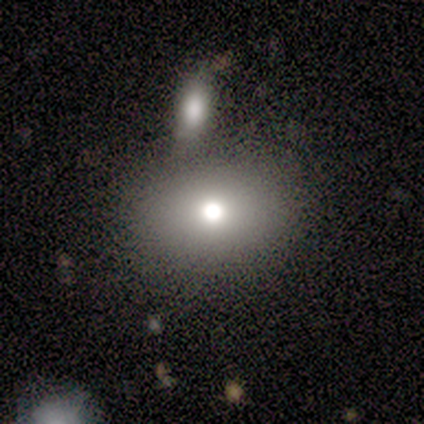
This is clearly a smooth galaxy (100%). How rounded: clearly in between (100%). Merging: clearly merger (100%).